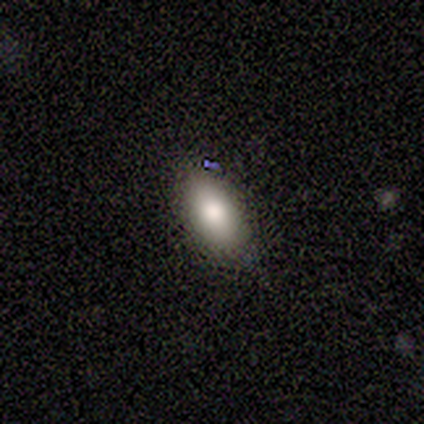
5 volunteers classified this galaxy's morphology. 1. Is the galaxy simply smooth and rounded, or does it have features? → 80% smooth, 20% featured or disk, 0% star or artifact.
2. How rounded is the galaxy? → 75% in between, 25% round, 0% cigar-shaped.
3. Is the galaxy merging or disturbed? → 80% none, 20% minor disturbance, 0% major disturbance, 0% merger.